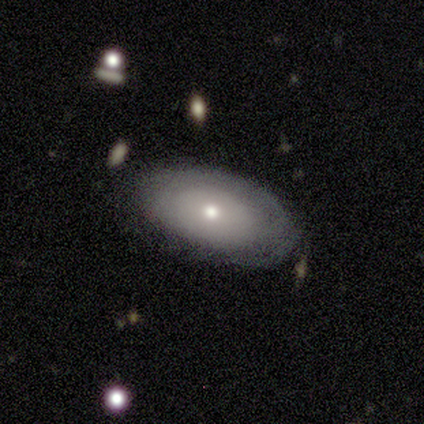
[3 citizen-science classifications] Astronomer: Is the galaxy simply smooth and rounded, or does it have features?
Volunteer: smooth — 100%.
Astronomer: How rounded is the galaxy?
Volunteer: in between — 100%.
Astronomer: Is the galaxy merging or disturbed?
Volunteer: none — 67%.